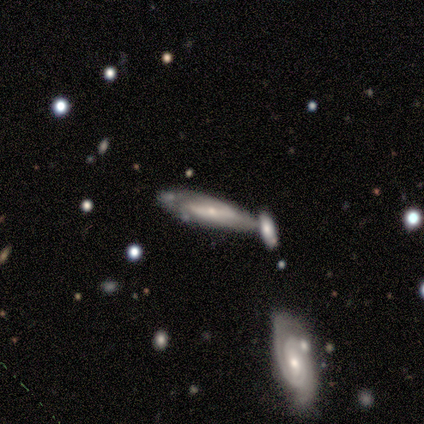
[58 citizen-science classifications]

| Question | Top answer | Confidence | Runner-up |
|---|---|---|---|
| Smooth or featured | featured or disk | 74% | smooth (17%) |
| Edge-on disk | no | 65% | yes (35%) |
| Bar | no | 46% | strong (32%) |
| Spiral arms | yes | 75% | no (25%) |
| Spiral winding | tight | 62% | medium (24%) |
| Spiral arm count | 2 | 52% | can't tell (38%) |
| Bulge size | small | 82% | moderate (11%) |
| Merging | none | 45% | merger (30%) |